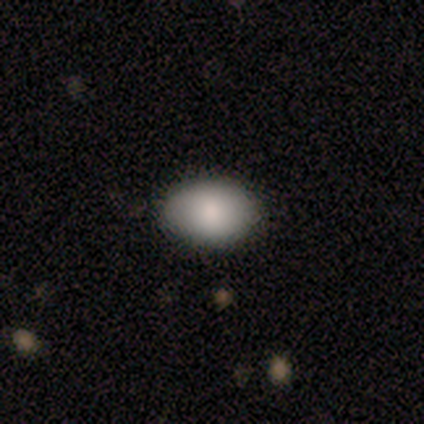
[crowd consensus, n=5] Smooth or featured? smooth (80%)
How rounded? in between (100%)
Merging? none (75%)